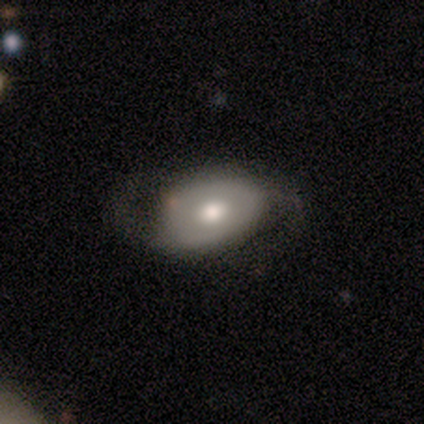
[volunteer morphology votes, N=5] smooth-or-featured: featured or disk: 100% | smooth: 0% | star or artifact: 0%
  disk-edge-on: no: 80% | yes: 20%
    bar: no: 75% | weak: 25% | strong: 0%
    has-spiral-arms: yes: 100% | no: 0%
      spiral-winding: medium: 50% (tied) | loose: 50% (tied) | tight: 0%
      spiral-arm-count: 2: 75% | 1: 25% | 3: 0% | 4: 0% | more than 4: 0% | can't tell: 0%
    bulge-size: moderate: 100% | dominant: 0% | large: 0% | small: 0% | none: 0%
  merging: none: 80% | minor disturbance: 20% | major disturbance: 0% | merger: 0%